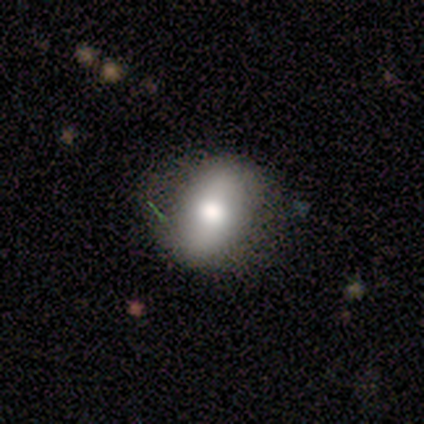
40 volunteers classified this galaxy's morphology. This appears to be a smooth galaxy with no disk features (60%) that is in between round and cigar-shaped (71%). Merging: none (69%).